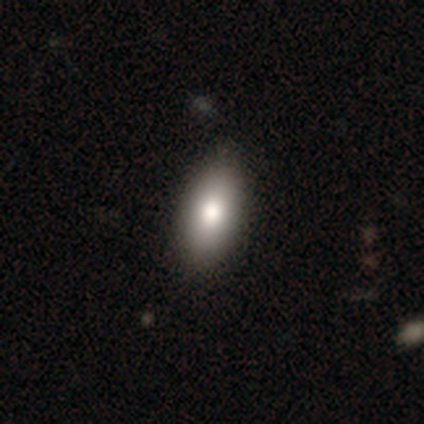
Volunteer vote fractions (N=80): Volunteers were most divided on "merging": none: 46%, minor disturbance: 5%, merger: 4%, major disturbance: 0%. More confident: smooth or featured — smooth (94%); how rounded — in between (87%).